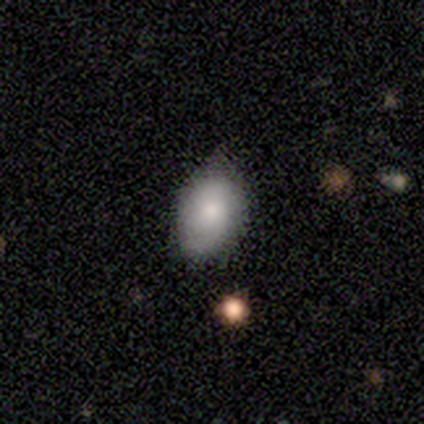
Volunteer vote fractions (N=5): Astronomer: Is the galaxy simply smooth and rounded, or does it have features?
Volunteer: smooth — 60% (runner-up: featured or disk, 40%).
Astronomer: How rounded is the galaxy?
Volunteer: in between — 100%.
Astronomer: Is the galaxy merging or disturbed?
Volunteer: none — 60%.